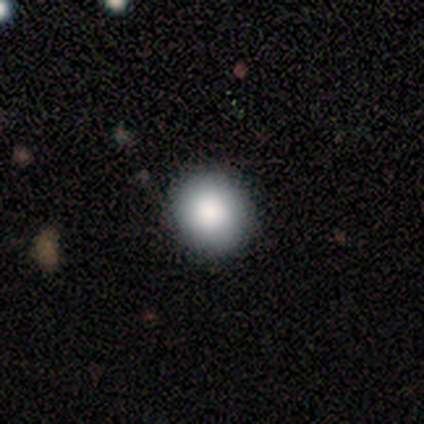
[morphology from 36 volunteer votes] Smooth or featured? 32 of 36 (89%) said smooth. How rounded? 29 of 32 (91%) said round. Merging? 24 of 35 (69%) said none.